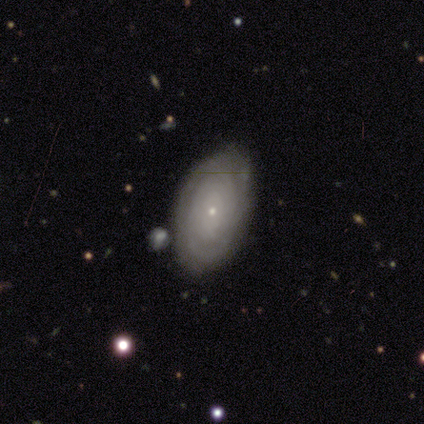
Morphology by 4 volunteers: smooth-or-featured: featured or disk: 75% | smooth: 25% | star or artifact: 0%
  disk-edge-on: no: 100% | yes: 0%
    bar: no: 100% | strong: 0% | weak: 0%
    has-spiral-arms: yes: 100% | no: 0%
      spiral-winding: tight: 100% | medium: 0% | loose: 0%
      spiral-arm-count: can't tell: 67% | more than 4: 33% | 1: 0% | 2: 0% | 3: 0% | 4: 0%
    bulge-size: small: 100% | dominant: 0% | large: 0% | moderate: 0% | none: 0%
  merging: none: 100% | minor disturbance: 0% | major disturbance: 0% | merger: 0%